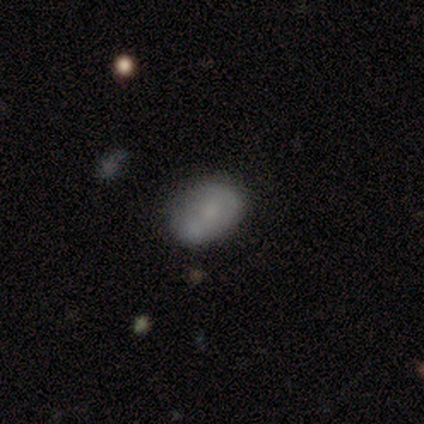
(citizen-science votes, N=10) Q: Smooth or featured?
A: smooth (50%); runner-up: featured or disk (30%)
Q: How rounded?
A: in between (100%)
Q: Merging?
A: none (62%); runner-up: minor disturbance (25%)